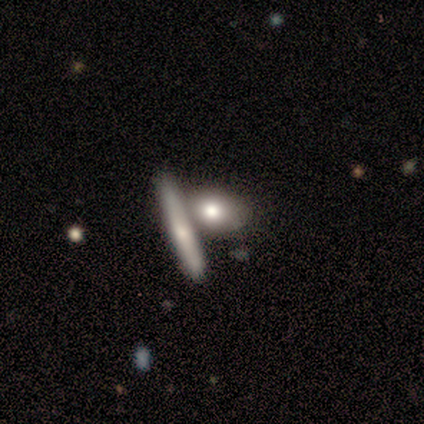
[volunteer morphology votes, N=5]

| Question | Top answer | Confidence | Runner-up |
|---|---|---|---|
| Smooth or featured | featured or disk | 60% | smooth (40%) |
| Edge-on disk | yes | 67% | no (33%) |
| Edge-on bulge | none | 50% | tied: rounded (50%) |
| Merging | merger | 60% | none (40%) |